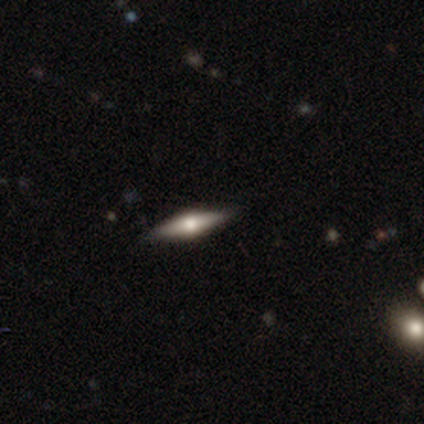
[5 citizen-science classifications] Morphology: type=featured or disk (60%); edge-on=yes (100%); edge-on bulge=rounded (100%); merging=none (100%).